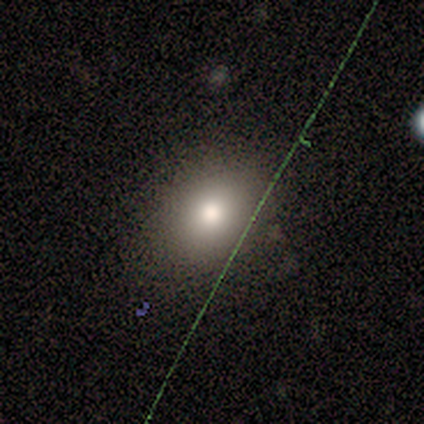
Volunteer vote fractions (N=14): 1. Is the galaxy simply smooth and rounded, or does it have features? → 79% smooth, 14% featured or disk, 7% star or artifact.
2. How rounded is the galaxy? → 64% round, 36% in between, 0% cigar-shaped.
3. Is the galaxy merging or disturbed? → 100% none, 0% minor disturbance, 0% major disturbance, 0% merger.